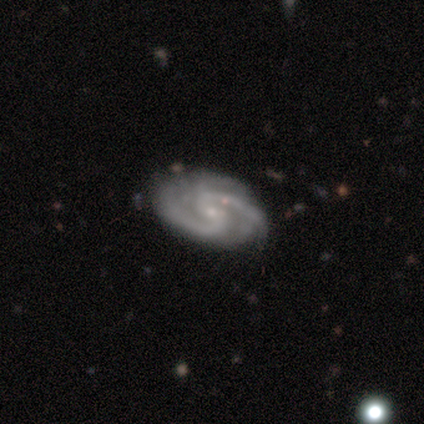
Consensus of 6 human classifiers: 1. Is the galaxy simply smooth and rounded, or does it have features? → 100% featured or disk, 0% smooth, 0% star or artifact.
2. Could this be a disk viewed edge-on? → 100% no, 0% yes.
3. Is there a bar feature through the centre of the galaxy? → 50% weak, 33% no, 17% strong.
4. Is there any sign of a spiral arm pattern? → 100% yes, 0% no.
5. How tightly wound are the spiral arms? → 83% medium, 17% tight, 0% loose.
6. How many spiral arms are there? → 83% 2, 17% 3, 0% 1, 0% 4, 0% more than 4, 0% can't tell.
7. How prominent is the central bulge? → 100% small, 0% dominant, 0% large, 0% moderate, 0% none.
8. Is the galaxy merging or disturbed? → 83% none, 17% minor disturbance, 0% major disturbance, 0% merger.